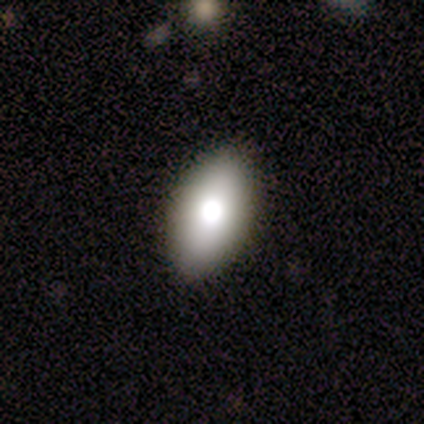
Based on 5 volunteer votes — Overall: smooth (80%). How rounded: in between (100%). Merging: none (80%).